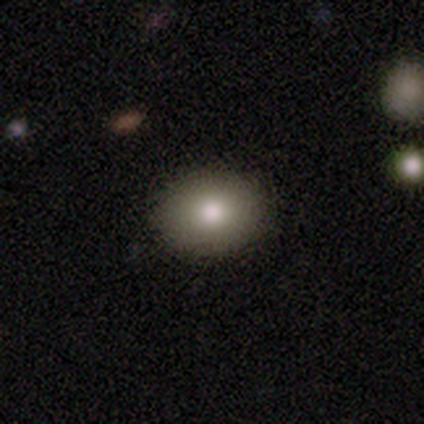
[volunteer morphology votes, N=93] smooth-or-featured: smooth: 73% | featured or disk: 15% | star or artifact: 12%
  how-rounded: in between: 53% | round: 47% | cigar-shaped: 0%
  merging: none: 94% | minor disturbance: 4% | major disturbance: 1% | merger: 1%